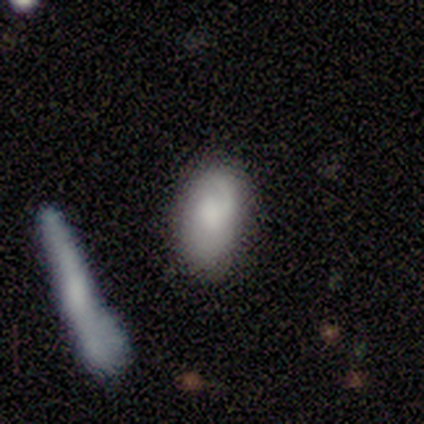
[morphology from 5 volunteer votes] Q: Smooth or featured?
A: smooth (100%)
Q: How rounded?
A: in between (100%)
Q: Merging?
A: none (100%)